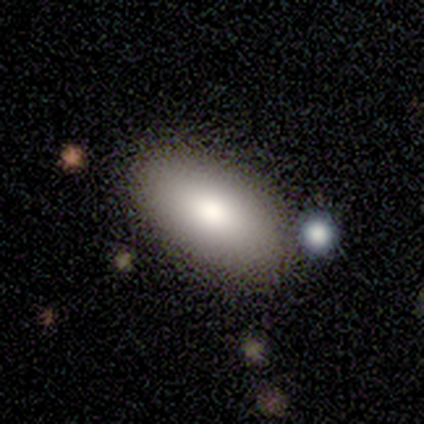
Volunteers were most divided on "smooth or featured": smooth: 80%, featured or disk: 20%, star or artifact: 0%. More confident: how rounded — in between (100%); merging — none (100%).